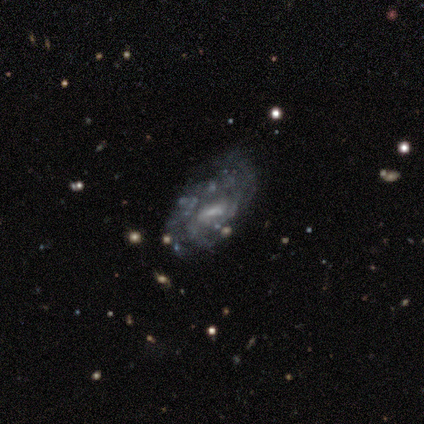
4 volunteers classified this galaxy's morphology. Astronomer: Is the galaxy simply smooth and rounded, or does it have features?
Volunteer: smooth — 50%, tied with featured or disk at 50%.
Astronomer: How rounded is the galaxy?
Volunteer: in between — 50%, tied with cigar-shaped at 50%.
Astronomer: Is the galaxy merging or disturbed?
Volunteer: minor disturbance — 50%.